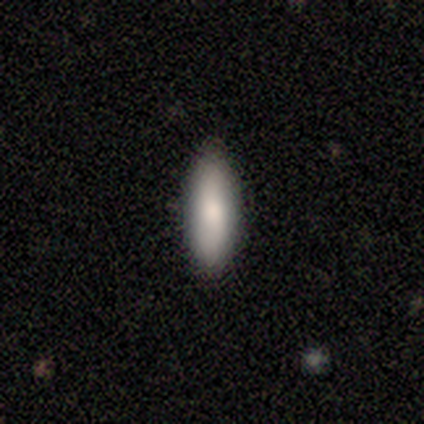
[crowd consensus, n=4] Smooth or featured: smooth — 100%
How rounded: in between — 100%
Merging: none — 100%